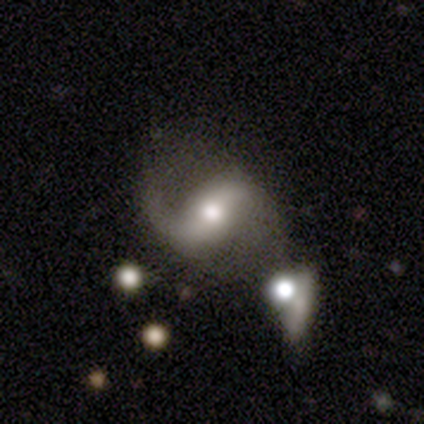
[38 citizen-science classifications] Smooth or featured? featured or disk (92%)
Edge-on disk? no (100%)
Bar? weak (43%)
Spiral arms? yes (97%)
Spiral winding? loose (71%)
Spiral arm count? 2 (91%)
Bulge size? moderate (74%)
Merging? none (46%)